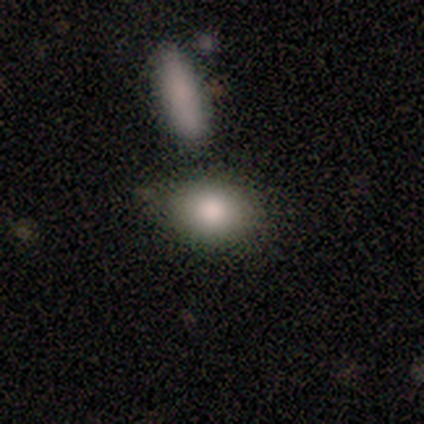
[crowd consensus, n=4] Smooth or featured?
  - smooth: 100% *
  - featured or disk: 0%
  - star or artifact: 0%
How rounded?
  - in between: 100% *
  - round: 0%
  - cigar-shaped: 0%
Merging?
  - none: 75% *
  - minor disturbance: 25%
  - major disturbance: 0%
  - merger: 0%